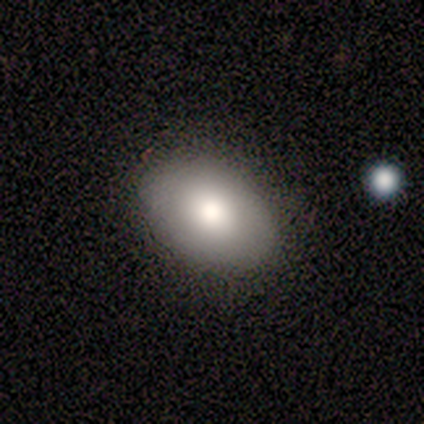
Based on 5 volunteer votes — A smooth galaxy with no disk features (100%) that is in between round and cigar-shaped (80%). Merging: none (100%).